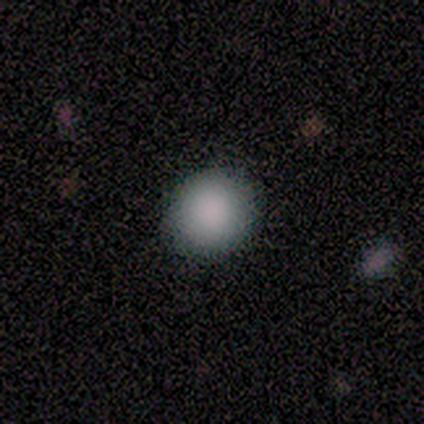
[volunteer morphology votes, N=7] A smooth galaxy with no disk features (86%) that is round (83%).

Vote fractions:
- Smooth or featured? smooth: 86% / star or artifact: 14% / featured or disk: 0%
- How rounded? round: 83% / in between: 17% / cigar-shaped: 0%
- Merging? none: 83% / merger: 17% / minor disturbance: 0% / major disturbance: 0%